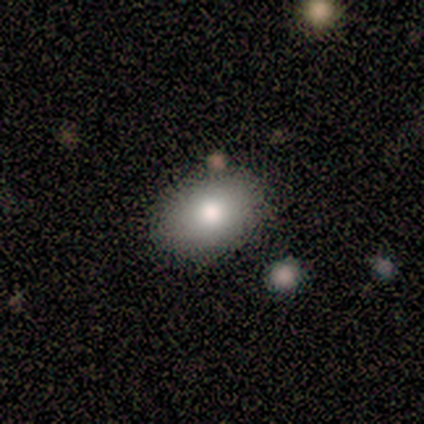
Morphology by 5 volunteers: Smooth or featured?
  - smooth: 100% *
  - featured or disk: 0%
  - star or artifact: 0%
How rounded?
  - in between: 60% *
  - round: 40%
  - cigar-shaped: 0%
Merging?
  - none: 60% *
  - minor disturbance: 40%
  - major disturbance: 0%
  - merger: 0%